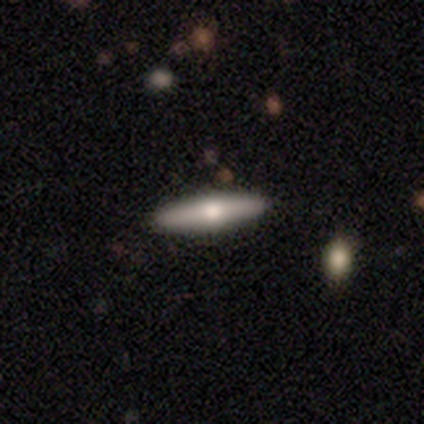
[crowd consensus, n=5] Smooth or featured? 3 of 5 (60%) said smooth. How rounded? 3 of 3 (100%) said cigar-shaped. Merging? 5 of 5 (100%) said none.